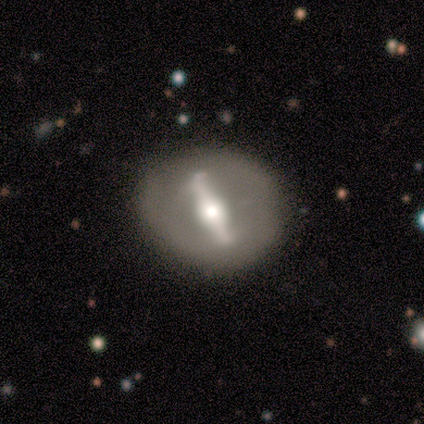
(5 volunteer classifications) Morphology: type=featured or disk (80%); edge-on=no (75%); bar=strong (100%); spiral arms=no (100%); bulge=moderate (100%); merging=none (50%, tied with minor disturbance).